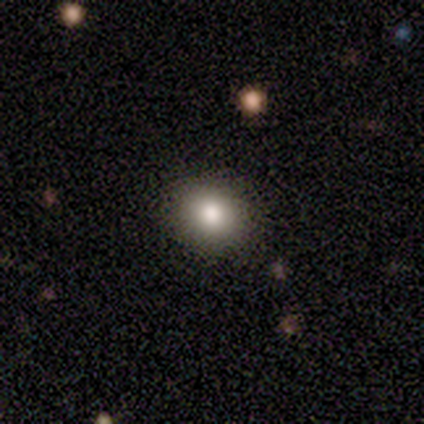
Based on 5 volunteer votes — Smooth or featured: smooth — 100%
How rounded: round — 80% (in between — 20%)
Merging: none — 100%